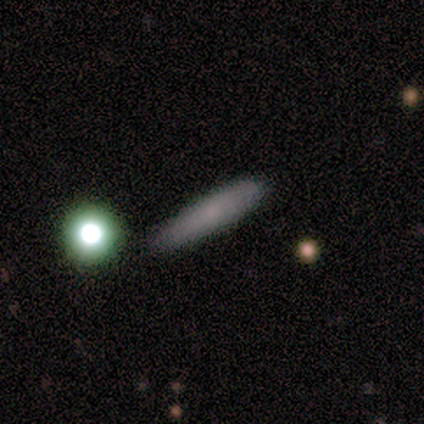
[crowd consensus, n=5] Smooth or featured? smooth (80%)
How rounded? cigar-shaped (100%)
Merging? none (50%, tied with minor disturbance)